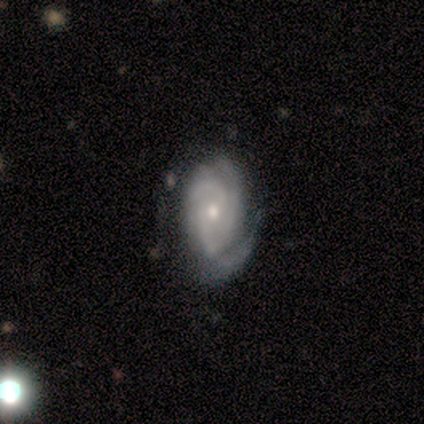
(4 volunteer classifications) Volunteers were most divided on "spiral arm count": 3: 50%, 2: 25%, can't tell: 25%, 1: 0%, 4: 0%, more than 4: 0%. More confident: smooth or featured — featured or disk (100%); edge-on disk — no (100%); spiral arms — yes (100%); spiral winding — tight (100%); bar — weak (75%); bulge size — small (75%); merging — none (75%).